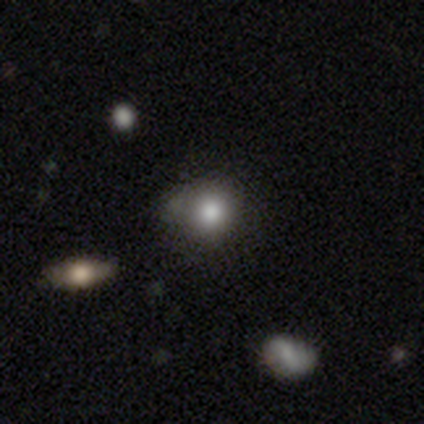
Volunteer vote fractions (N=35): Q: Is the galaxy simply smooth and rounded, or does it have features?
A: smooth — 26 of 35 (74%).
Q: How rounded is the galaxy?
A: round — 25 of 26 (96%).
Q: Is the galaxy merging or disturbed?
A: none — 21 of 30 (70%).